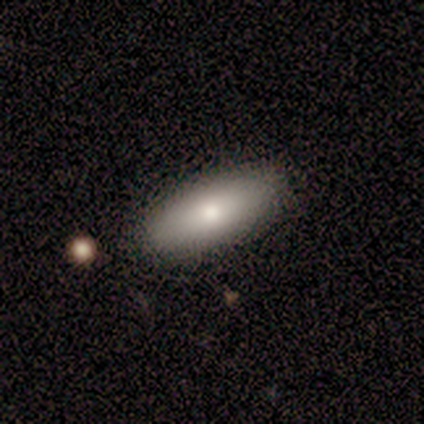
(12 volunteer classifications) This is clearly a smooth galaxy (92%). How rounded: likely in between (73%). Merging: clearly none (92%).